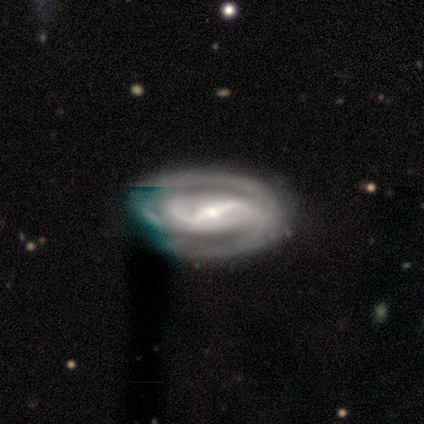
smooth-or-featured: featured or disk: 100% | smooth: 0% | star or artifact: 0%
  disk-edge-on: no: 92% | yes: 8%
    bar: strong: 82% | no: 18% | weak: 0%
    has-spiral-arms: yes: 100% | no: 0%
      spiral-winding: tight: 45% (tied) | medium: 45% (tied) | loose: 9%
      spiral-arm-count: 2: 82% | 3: 9% | can't tell: 9% | 1: 0% | 4: 0% | more than 4: 0%
    bulge-size: small: 82% | large: 9% | moderate: 9% | dominant: 0% | none: 0%
  merging: none: 58% | minor disturbance: 33% | major disturbance: 8% | merger: 0%